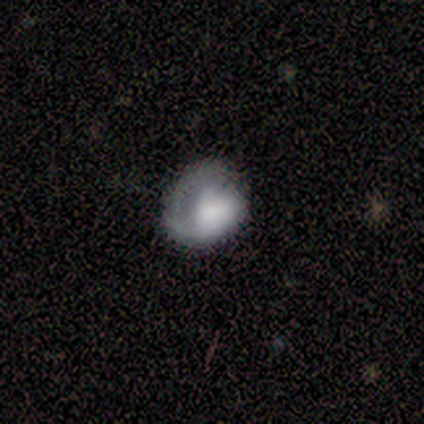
smooth-or-featured: smooth: 75% | featured or disk: 25% | star or artifact: 0%
  how-rounded: round: 100% | in between: 0% | cigar-shaped: 0%
  merging: minor disturbance: 75% | none: 25% | major disturbance: 0% | merger: 0%